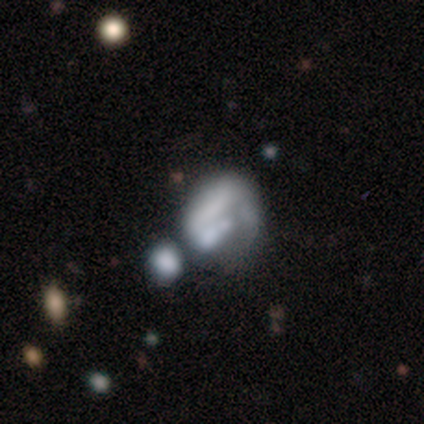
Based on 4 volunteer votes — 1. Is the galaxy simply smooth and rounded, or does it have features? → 75% featured or disk, 25% smooth, 0% star or artifact.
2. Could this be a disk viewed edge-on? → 100% no, 0% yes.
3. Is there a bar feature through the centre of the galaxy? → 100% no, 0% strong, 0% weak.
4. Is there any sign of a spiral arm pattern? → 100% no, 0% yes.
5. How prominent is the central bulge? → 67% none, 33% small, 0% dominant, 0% large, 0% moderate.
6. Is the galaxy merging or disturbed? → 50% minor disturbance, 25% major disturbance, 25% merger, 0% none.